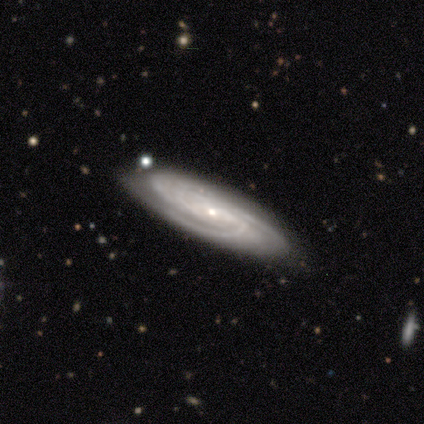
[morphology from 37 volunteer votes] featured or disk 81%, smooth 14%, star or artifact 5%. Down the decision tree: edge-on disk — no (83%); bar — no (56%); spiral arms — yes (100%); spiral arm count — can't tell (36%); spiral winding — tight (52%); bulge size — small (88%); merging — none (83%).